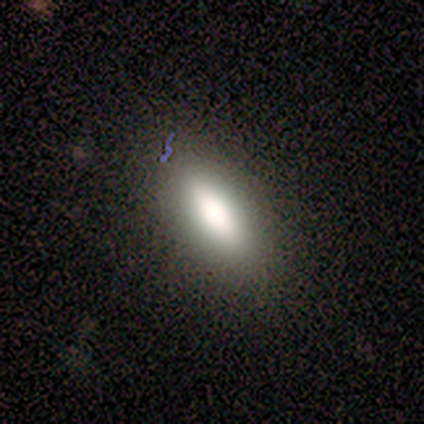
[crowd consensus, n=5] This appears to be a smooth galaxy with no disk features (100%) that is cigar-shaped (60%). Merging: none (100%).